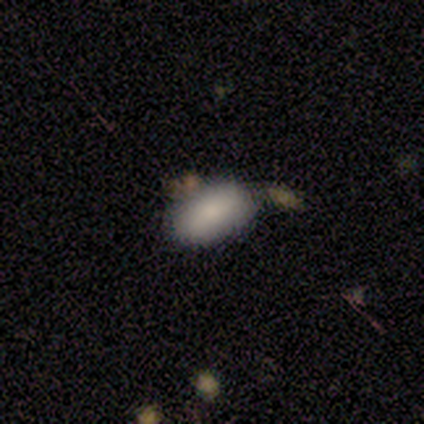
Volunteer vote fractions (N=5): This is clearly a smooth galaxy (100%). How rounded: clearly in between (100%). Merging: clearly none (80%).